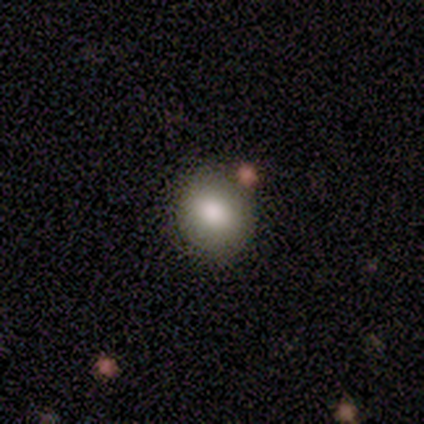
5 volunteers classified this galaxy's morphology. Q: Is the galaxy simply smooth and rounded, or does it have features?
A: smooth — 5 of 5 (100%).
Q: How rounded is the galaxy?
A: round — 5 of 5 (100%).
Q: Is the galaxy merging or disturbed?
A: none — 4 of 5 (80%).